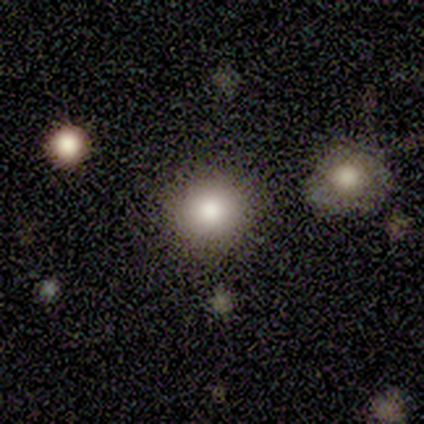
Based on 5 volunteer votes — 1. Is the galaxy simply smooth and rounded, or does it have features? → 100% smooth, 0% featured or disk, 0% star or artifact.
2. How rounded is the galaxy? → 100% round, 0% in between, 0% cigar-shaped.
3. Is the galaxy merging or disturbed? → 80% none, 20% merger, 0% minor disturbance, 0% major disturbance.